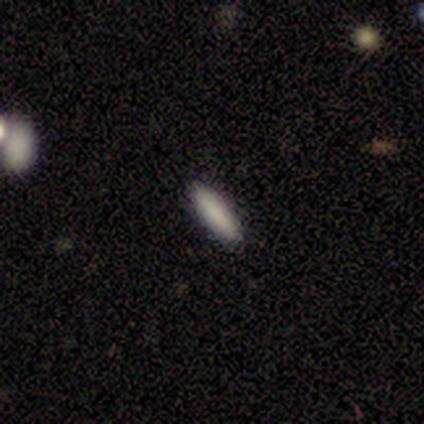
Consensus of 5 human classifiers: Smooth or featured: smooth — 100%
How rounded: cigar-shaped — 80% (in between — 20%)
Merging: none — 100%